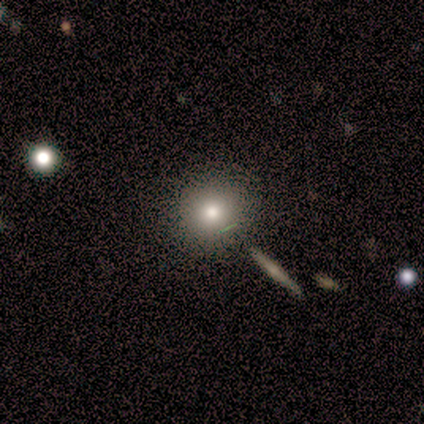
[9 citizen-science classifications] Smooth or featured: smooth — 89% (star or artifact — 11%)
How rounded: round — 88% (cigar-shaped — 12%)
Merging: none — 88% (merger — 12%)